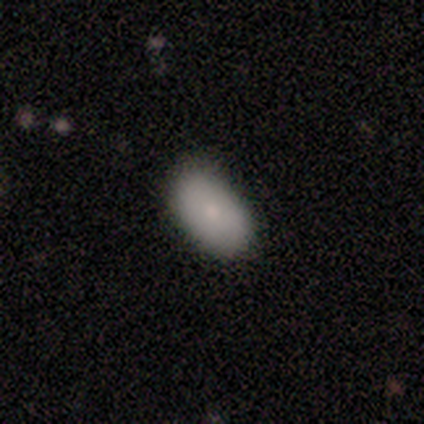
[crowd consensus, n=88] smooth-or-featured: smooth: 91% | featured or disk: 7% | star or artifact: 2%
  how-rounded: in between: 90% | round: 9% | cigar-shaped: 1%
  merging: none: 72% | minor disturbance: 22% | merger: 3% | major disturbance: 2%